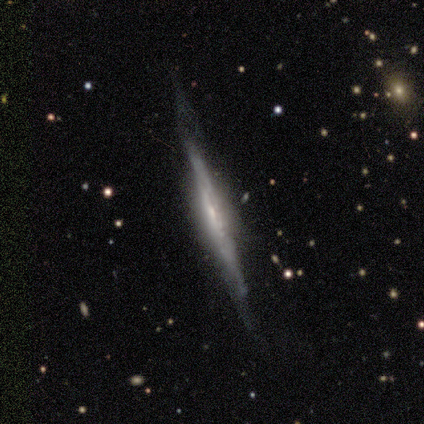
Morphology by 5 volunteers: Overall: featured or disk (80%). Edge-on disk: yes (100%). Edge-on bulge: boxy (50%, tied with rounded). Merging: none (75%).